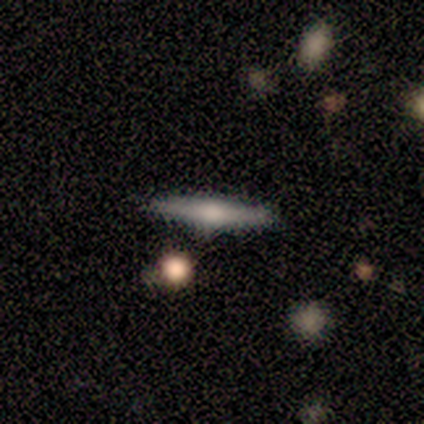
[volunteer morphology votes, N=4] Volunteers were most divided on "smooth or featured" (2-way tie): smooth: 50%, featured or disk: 50%, star or artifact: 0%. More confident: how rounded — cigar-shaped (100%); merging — none (100%).